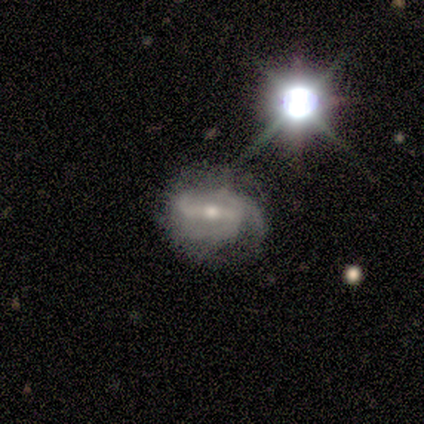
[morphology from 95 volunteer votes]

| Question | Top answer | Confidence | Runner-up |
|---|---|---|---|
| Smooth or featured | featured or disk | 83% | star or artifact (11%) |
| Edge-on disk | no | 99% | yes (1%) |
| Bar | strong | 63% | weak (28%) |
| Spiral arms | yes | 92% | no (8%) |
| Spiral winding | medium | 50% | tight (26%) |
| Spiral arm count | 2 | 44% | 3 (39%) |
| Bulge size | moderate | 62% | small (33%) |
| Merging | none | 46% | minor disturbance (39%) |